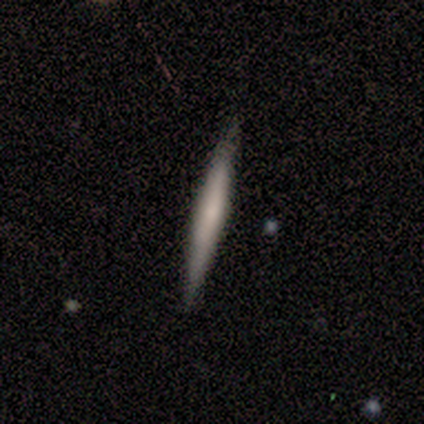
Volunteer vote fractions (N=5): This appears to be a featured or disk galaxy (60%) viewed edge-on (67%) with a boxy central bulge (50%, tied with none). Merging: none (100%).